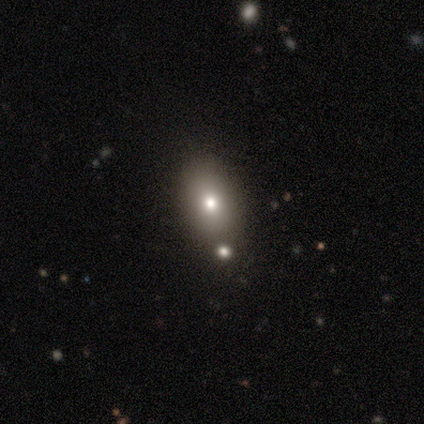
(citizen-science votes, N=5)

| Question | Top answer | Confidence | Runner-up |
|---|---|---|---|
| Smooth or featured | smooth | 40% | tied: star or artifact (40%) |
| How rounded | in between | 100% | — |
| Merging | none | 67% | merger (33%) |